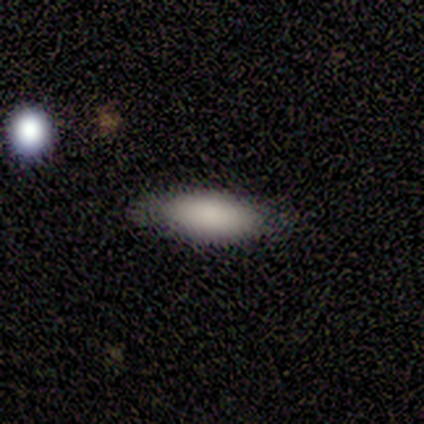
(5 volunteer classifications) Smooth or featured? smooth (100%)
How rounded? in between (60%)
Merging? none (100%)